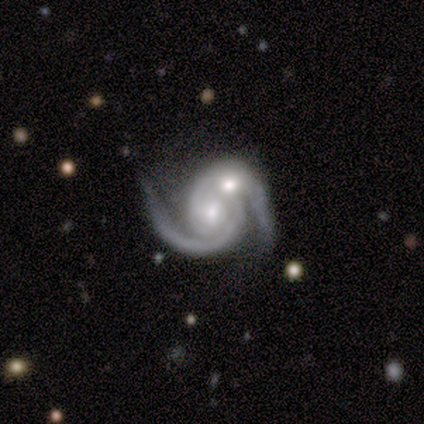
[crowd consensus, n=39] Smooth or featured?
  - featured or disk: 97% *
  - star or artifact: 3%
  - smooth: 0%
Edge-on disk?
  - no: 97% *
  - yes: 3%
Bar?
  - no: 54% *
  - weak: 32%
  - strong: 14%
Spiral arms?
  - yes: 100% *
  - no: 0%
Spiral winding?
  - medium: 43% *
  - tight: 41%
  - loose: 16%
Spiral arm count?
  - 2: 76% *
  - can't tell: 11%
  - 1: 5%
  - 3: 5%
  - more than 4: 3%
  - 4: 0%
Bulge size?
  - moderate: 54% *
  - small: 38%
  - large: 5%
  - dominant: 3%
  - none: 0%
Merging?
  - merger: 71% *
  - none: 16%
  - major disturbance: 8%
  - minor disturbance: 5%